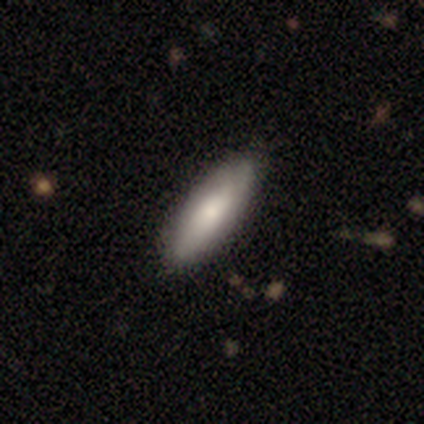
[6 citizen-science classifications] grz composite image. It shows a featured or disk galaxy (67%) with no bar (100%), no spiral arms (100%) and a small central bulge (67%). Merging: none (83%).